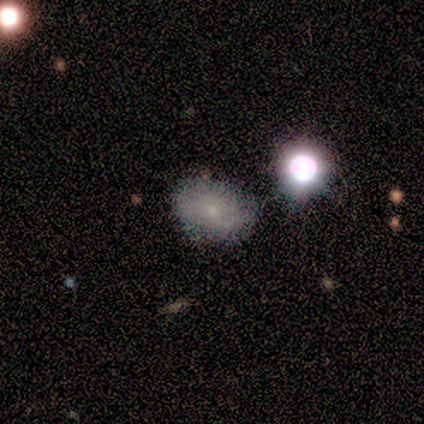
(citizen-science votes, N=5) smooth_or_featured: smooth (p=0.80) [alt: featured or disk p=0.20]
how_rounded: in between (p=1.00)
merging: none (p=0.60) [alt: minor disturbance p=0.40]